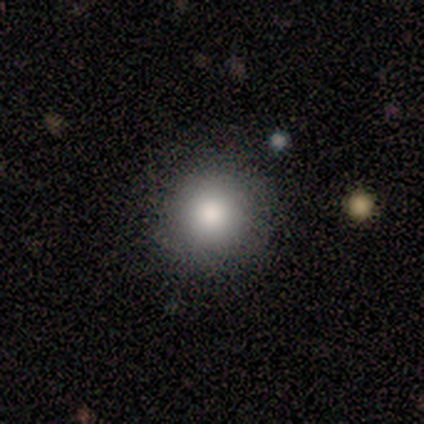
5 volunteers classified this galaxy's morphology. This is likely a smooth galaxy (60%). How rounded: clearly round (100%). Merging: likely none (75%).